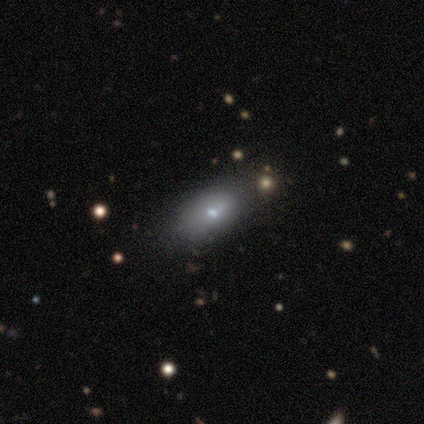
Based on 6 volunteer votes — A featured or disk galaxy (67%) with no bar (100%), no spiral arms (100%) and a small central bulge (100%). Merging: none (80%).